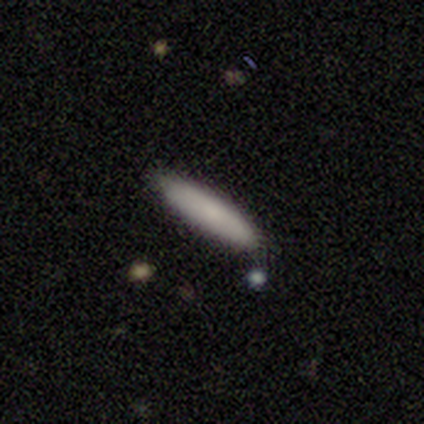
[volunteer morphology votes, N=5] This is clearly a smooth galaxy (80%). How rounded: possibly in between (50%, tied with cigar-shaped). Merging: clearly none (80%).